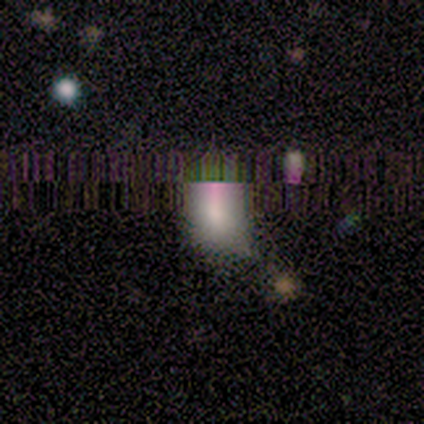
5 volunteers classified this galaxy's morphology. Smooth or featured?
  - smooth: 80% *
  - star or artifact: 20%
  - featured or disk: 0%
How rounded?
  - in between: 100% *
  - round: 0%
  - cigar-shaped: 0%
Merging?
  - none: 75% *
  - minor disturbance: 25%
  - major disturbance: 0%
  - merger: 0%